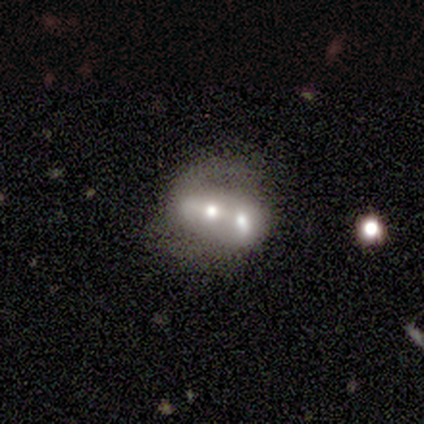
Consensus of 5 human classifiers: smooth_or_featured: smooth (p=0.60) [alt: featured or disk p=0.40]
how_rounded: in between (p=1.00)
merging: merger (p=1.00)